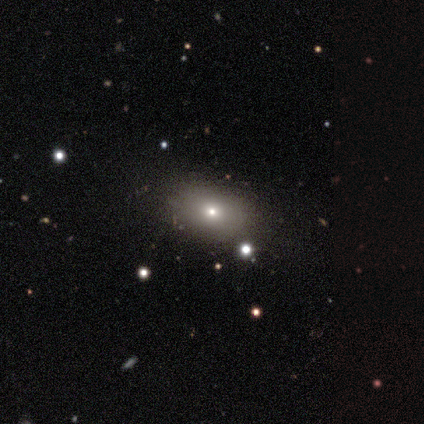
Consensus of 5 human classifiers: Smooth or featured: smooth — 100%
How rounded: round — 60% (in between — 40%)
Merging: none — 80% (minor disturbance — 20%)